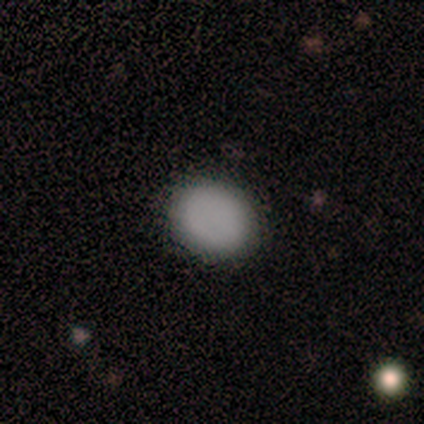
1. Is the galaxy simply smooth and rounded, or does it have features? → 100% smooth, 0% featured or disk, 0% star or artifact.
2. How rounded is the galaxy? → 80% round, 20% in between, 0% cigar-shaped.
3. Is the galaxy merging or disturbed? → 100% none, 0% minor disturbance, 0% major disturbance, 0% merger.